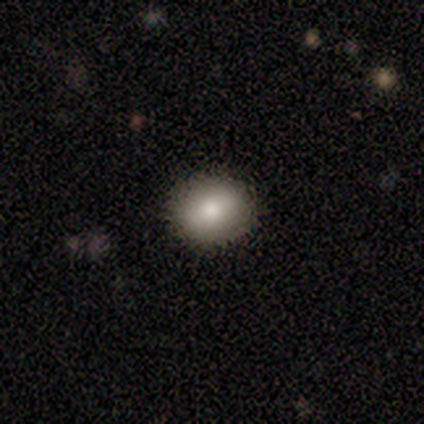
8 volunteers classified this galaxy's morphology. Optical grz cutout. It shows a smooth galaxy with no disk features (75%) that is round (83%). Merging: none (67%).